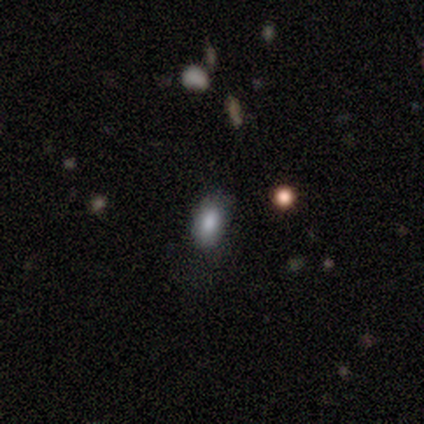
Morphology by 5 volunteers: Overall: smooth (80%). How rounded: in between (100%). Merging: none (50%; minor disturbance 25%).